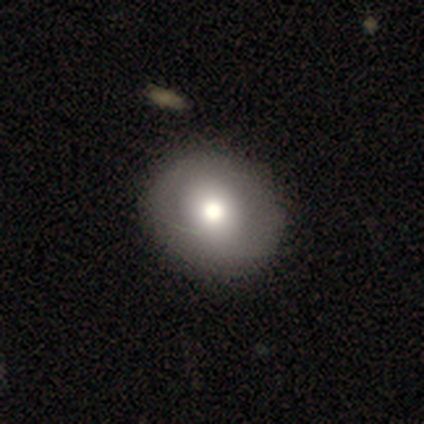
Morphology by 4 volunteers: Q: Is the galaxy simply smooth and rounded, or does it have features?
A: smooth — 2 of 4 (50%, tied with featured or disk).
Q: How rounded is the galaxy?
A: in between — 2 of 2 (100%).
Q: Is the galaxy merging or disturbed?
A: none — 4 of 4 (100%).